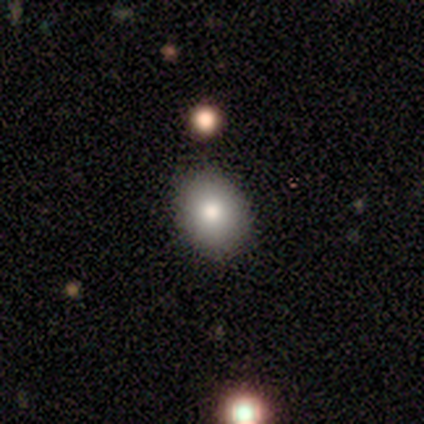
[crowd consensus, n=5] Smooth or featured?
  - smooth: 80% *
  - featured or disk: 20%
  - star or artifact: 0%
How rounded?
  - round: 50% * (tied)
  - in between: 50% * (tied)
  - cigar-shaped: 0%
Merging?
  - none: 100% *
  - minor disturbance: 0%
  - major disturbance: 0%
  - merger: 0%